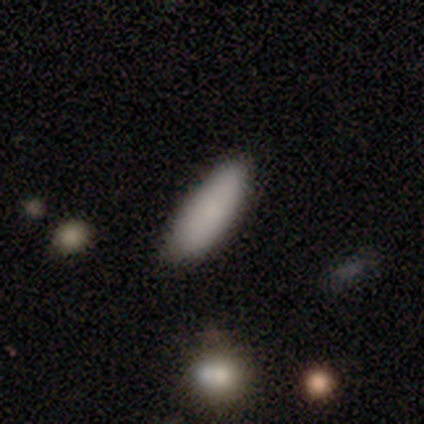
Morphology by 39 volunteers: smooth 87%, featured or disk 8%, star or artifact 5%. Down the decision tree: how rounded — in between (62%); merging — none (81%).